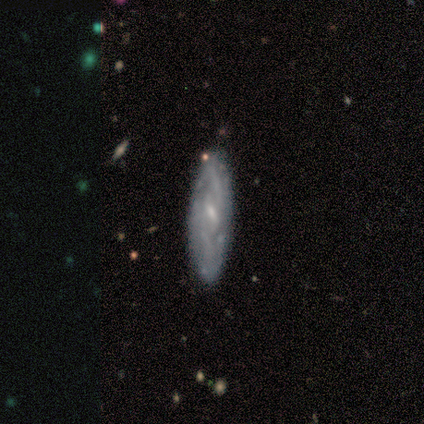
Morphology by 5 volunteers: smooth_or_featured: featured or disk (p=1.00)
disk_edge_on: no (p=0.60) [alt: yes p=0.40]
bar: weak (p=1.00)
has_spiral_arms: yes (p=0.67) [alt: no p=0.33]
spiral_winding: medium (p=1.00)
spiral_arm_count: 2 (p=0.50) [tied with: 3 p=0.50]
bulge_size: small (p=0.67) [alt: none p=0.33]
merging: none (p=0.60) [alt: minor disturbance p=0.20]